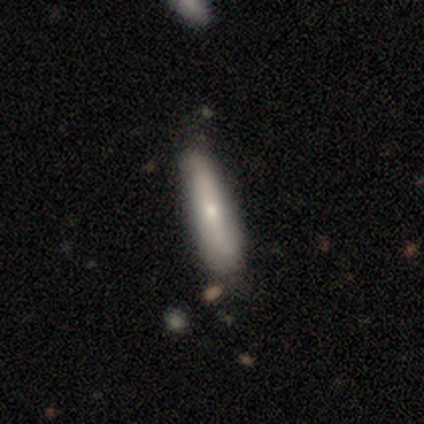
Smooth or featured?
  - smooth: 80% *
  - featured or disk: 20%
  - star or artifact: 0%
How rounded?
  - in between: 50% * (tied)
  - cigar-shaped: 50% * (tied)
  - round: 0%
Merging?
  - none: 100% *
  - minor disturbance: 0%
  - major disturbance: 0%
  - merger: 0%